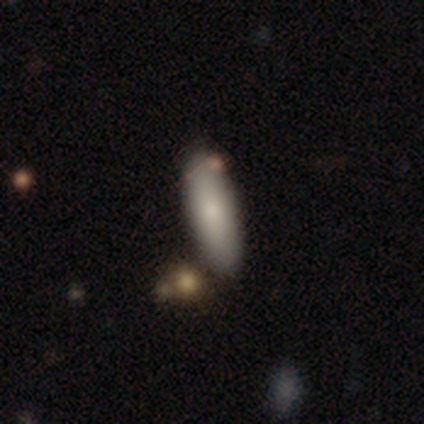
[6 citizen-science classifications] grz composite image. It shows a smooth galaxy with no disk features (100%) that is in between round and cigar-shaped (83%). Merging: none (100%).